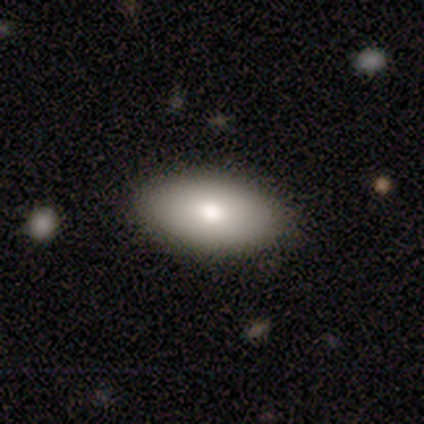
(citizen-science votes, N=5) Volunteers were most divided on "smooth or featured": smooth: 80%, featured or disk: 20%, star or artifact: 0%. More confident: how rounded — in between (100%); merging — none (100%).